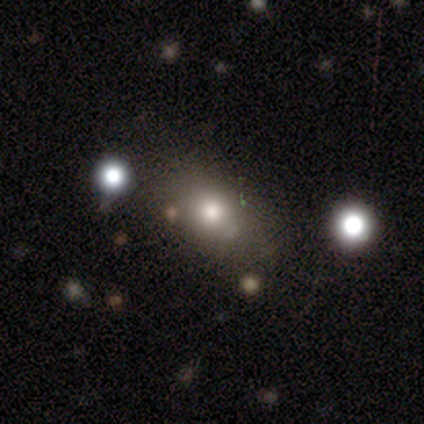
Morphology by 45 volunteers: smooth_or_featured: smooth (p=0.80) [alt: star or artifact p=0.16]
how_rounded: in between (p=0.53) [alt: round p=0.39]
merging: none (p=0.71) [alt: minor disturbance p=0.11]